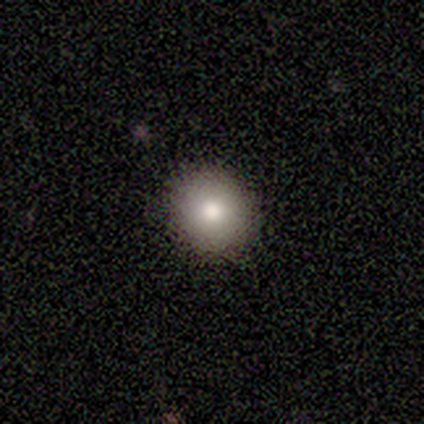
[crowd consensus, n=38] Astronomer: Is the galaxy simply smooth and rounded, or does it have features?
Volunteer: smooth — 76%.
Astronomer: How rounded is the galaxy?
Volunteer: round — 97%.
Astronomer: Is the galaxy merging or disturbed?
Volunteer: none — 91%.